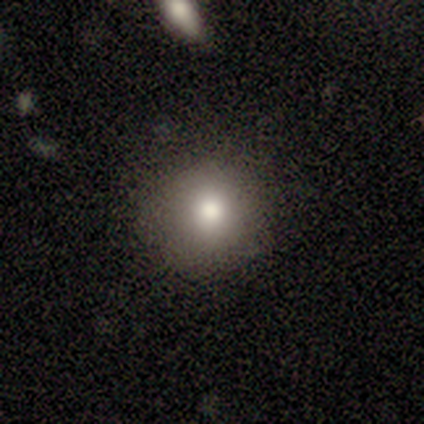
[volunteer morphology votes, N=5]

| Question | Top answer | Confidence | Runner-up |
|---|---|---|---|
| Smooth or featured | smooth | 100% | — |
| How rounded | round | 100% | — |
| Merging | none | 100% | — |